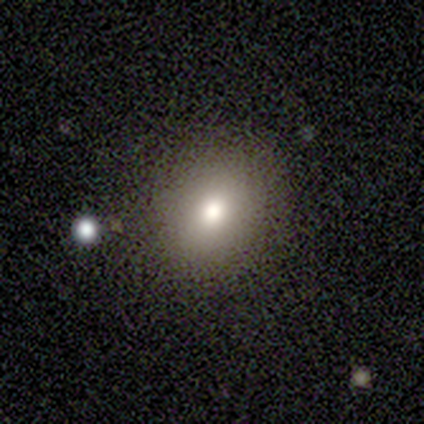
smooth-or-featured: smooth: 75% | featured or disk: 25% | star or artifact: 0%
  how-rounded: round: 67% | in between: 33% | cigar-shaped: 0%
  merging: none: 50% | minor disturbance: 25% | major disturbance: 25% | merger: 0%